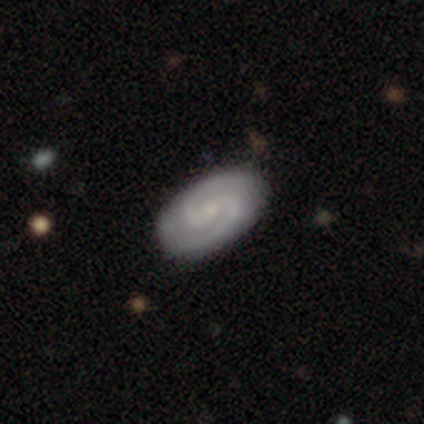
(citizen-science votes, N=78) smooth_or_featured: featured or disk (p=0.81) [alt: smooth p=0.18]
disk_edge_on: no (p=0.98) [alt: yes p=0.02]
bar: weak (p=0.50) [alt: no p=0.34]
has_spiral_arms: yes (p=0.97) [alt: no p=0.03]
spiral_winding: medium (p=0.65) [alt: tight p=0.27]
spiral_arm_count: 2 (p=0.95) [alt: 3 p=0.03]
bulge_size: small (p=0.71) [alt: none p=0.15]
merging: none (p=0.51) [alt: minor disturbance p=0.08]